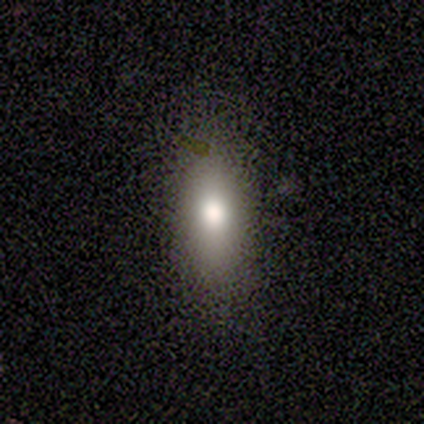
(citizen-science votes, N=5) smooth-or-featured: smooth: 100% | featured or disk: 0% | star or artifact: 0%
  how-rounded: in between: 60% | round: 20% | cigar-shaped: 20%
  merging: none: 100% | minor disturbance: 0% | major disturbance: 0% | merger: 0%